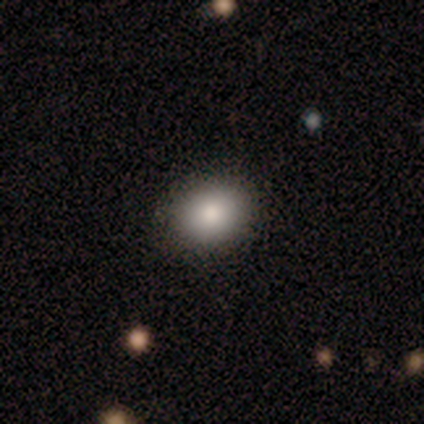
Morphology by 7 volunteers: Smooth or featured? smooth (100%)
How rounded? in between (57%)
Merging? none (100%)